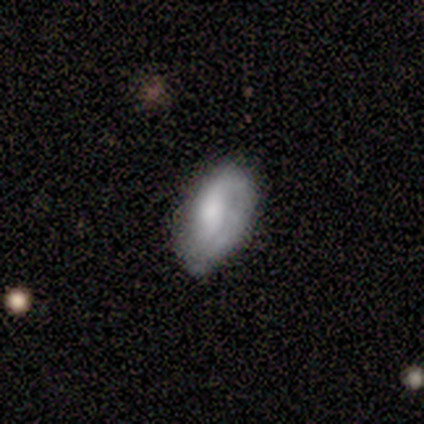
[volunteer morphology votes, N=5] Smooth or featured? featured or disk (80%)
Edge-on disk? no (100%)
Bar? weak (75%)
Spiral arms? yes (75%)
Spiral winding? medium (67%)
Spiral arm count? 1 (100%)
Bulge size? large (25%, tied with moderate, small and none)
Merging? none (60%)